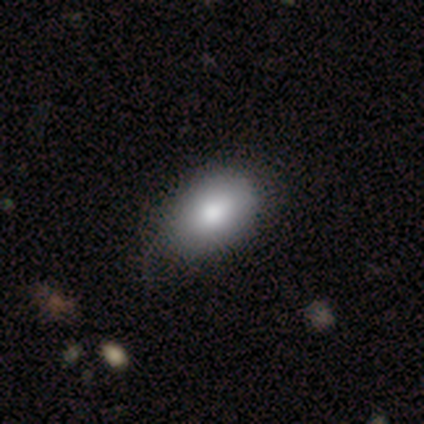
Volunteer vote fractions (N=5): Q: Smooth or featured?
A: smooth (60%); runner-up: featured or disk (40%)
Q: How rounded?
A: in between (100%)
Q: Merging?
A: none (80%); runner-up: minor disturbance (20%)